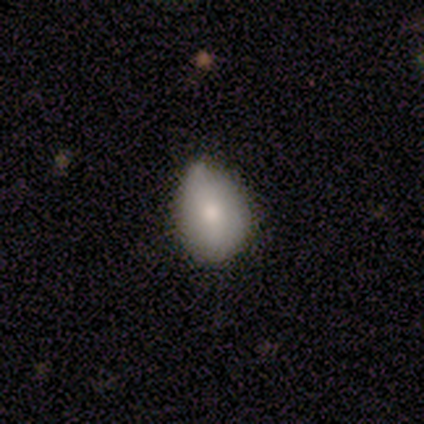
Q: Smooth or featured?
A: smooth (50%); tied with: featured or disk (50%)
Q: How rounded?
A: round (50%); tied with: in between (50%)
Q: Merging?
A: minor disturbance (75%); runner-up: none (25%)